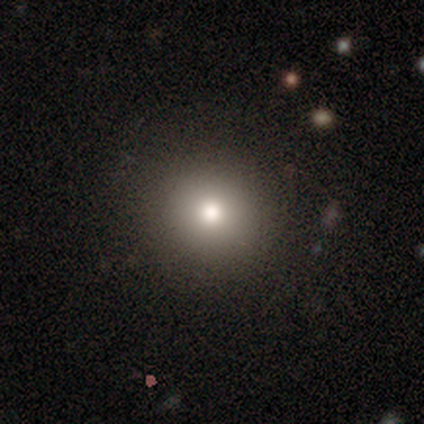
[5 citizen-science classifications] This is marginally a smooth galaxy (40%, tied with star or artifact). How rounded: clearly round (100%). Merging: likely none (67%).